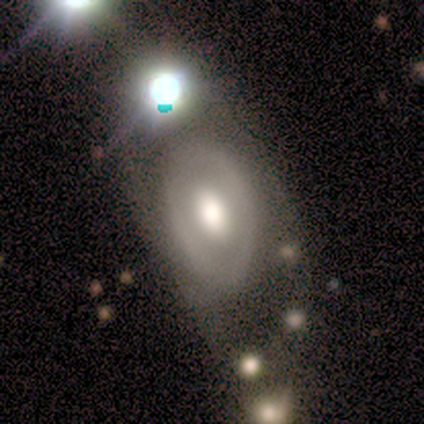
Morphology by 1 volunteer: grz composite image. It shows a featured or disk galaxy (100%) with no bar (100%), no spiral arms (100%) and a large central bulge (100%). Merging: merger (100%).